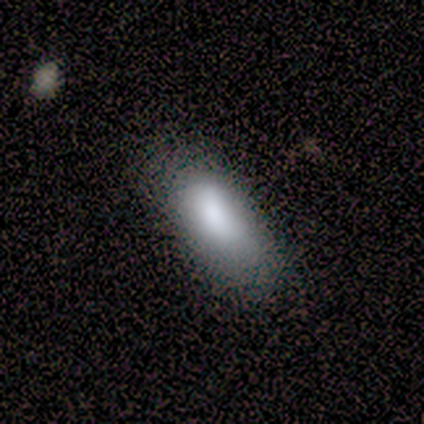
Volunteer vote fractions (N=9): A smooth galaxy with no disk features (100%) that is in between round and cigar-shaped (78%).

Vote fractions:
- Smooth or featured? smooth: 100% / featured or disk: 0% / star or artifact: 0%
- How rounded? in between: 78% / cigar-shaped: 22% / round: 0%
- Merging? none: 67% / minor disturbance: 22% / major disturbance: 11% / merger: 0%